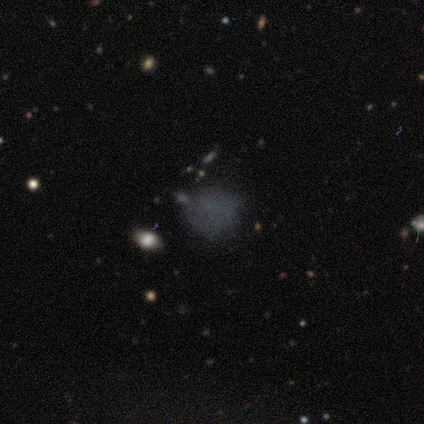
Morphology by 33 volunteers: This is likely a smooth galaxy (61%). How rounded: likely round (65%). Merging: likely none (63%).